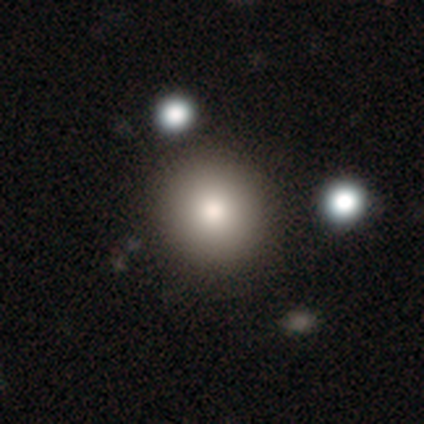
Smooth or featured? 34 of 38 (89%) said smooth. How rounded? 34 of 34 (100%) said round. Merging? 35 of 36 (97%) said none.